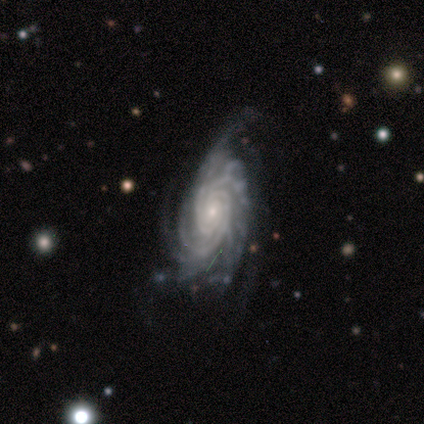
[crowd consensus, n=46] Smooth or featured?
  - featured or disk: 93% *
  - smooth: 4%
  - star or artifact: 2%
Edge-on disk?
  - no: 91% *
  - yes: 9%
Bar?
  - no: 74% *
  - weak: 23%
  - strong: 3%
Spiral arms?
  - yes: 100% *
  - no: 0%
Spiral winding?
  - tight: 72% *
  - medium: 26%
  - loose: 3%
Spiral arm count?
  - more than 4: 28% *
  - 3: 23%
  - 4: 21%
  - can't tell: 21%
  - 2: 8%
  - 1: 0%
Bulge size?
  - small: 72% *
  - moderate: 26%
  - dominant: 3%
  - large: 0%
  - none: 0%
Merging?
  - none: 49% *
  - minor disturbance: 24%
  - major disturbance: 22%
  - merger: 4%